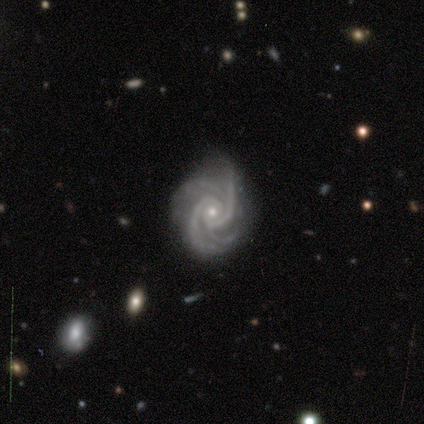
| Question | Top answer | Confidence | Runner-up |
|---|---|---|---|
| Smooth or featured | featured or disk | 100% | — |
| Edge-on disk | no | 100% | — |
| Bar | no | 60% | strong (20%) |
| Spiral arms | yes | 100% | — |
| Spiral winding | tight | 40% | tied: medium (40%) |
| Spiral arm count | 4 | 60% | 2 (20%) |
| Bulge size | small | 80% | moderate (20%) |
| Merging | none | 100% | — |